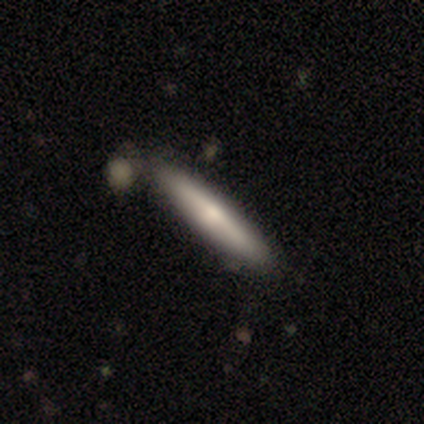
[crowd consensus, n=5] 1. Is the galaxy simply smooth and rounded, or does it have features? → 60% smooth, 20% featured or disk, 20% star or artifact.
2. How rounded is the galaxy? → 100% cigar-shaped, 0% round, 0% in between.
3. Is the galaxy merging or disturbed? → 50% none, 25% major disturbance, 25% merger, 0% minor disturbance.